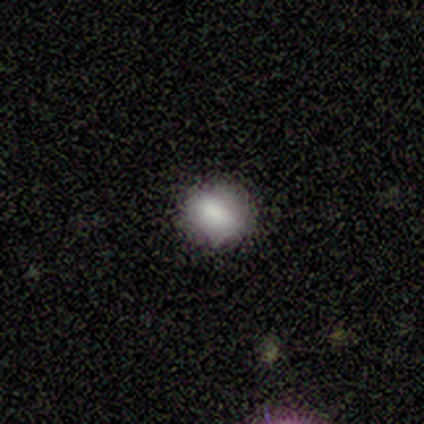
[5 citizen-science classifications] A smooth galaxy with no disk features (80%) that is round (100%). Merging: none (100%).